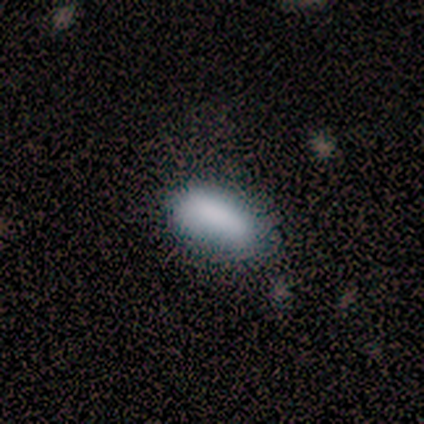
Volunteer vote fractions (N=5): Morphology: type=smooth (80%); roundness=in between (100%); merging=none (40%, tied with minor disturbance).